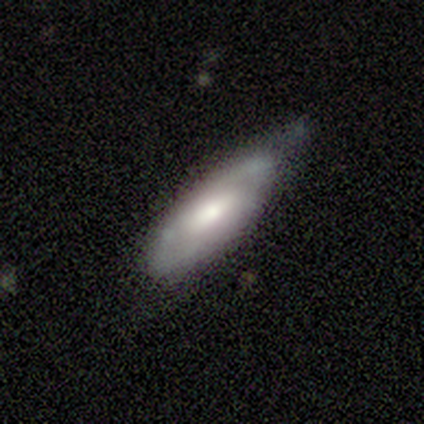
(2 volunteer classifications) This appears to be a smooth galaxy with no disk features (100%) that is in between round and cigar-shaped (50%, tied with cigar-shaped). Merging: none (100%).